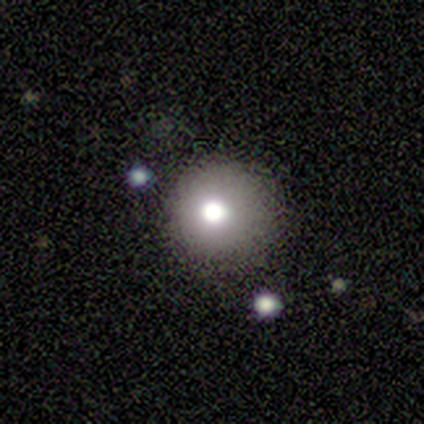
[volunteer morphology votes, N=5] Smooth or featured?
  - smooth: 100% *
  - featured or disk: 0%
  - star or artifact: 0%
How rounded?
  - round: 100% *
  - in between: 0%
  - cigar-shaped: 0%
Merging?
  - minor disturbance: 60% *
  - none: 40%
  - major disturbance: 0%
  - merger: 0%